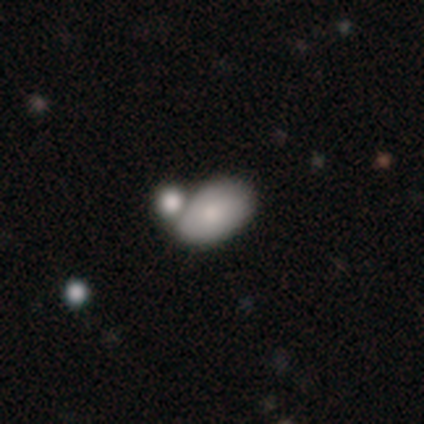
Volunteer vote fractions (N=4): Smooth or featured? smooth (50%, tied with featured or disk)
How rounded? in between (100%)
Merging? merger (75%)